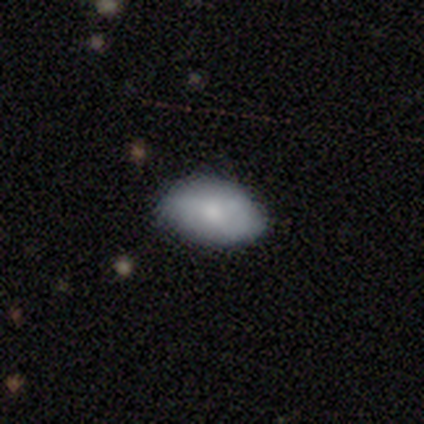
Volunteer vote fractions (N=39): A smooth galaxy with no disk features (79%) that is in between round and cigar-shaped (100%).

Vote fractions:
- Smooth or featured? smooth: 79% / featured or disk: 15% / star or artifact: 5%
- How rounded? in between: 100% / round: 0% / cigar-shaped: 0%
- Merging? none: 73% / minor disturbance: 22% / major disturbance: 5% / merger: 0%